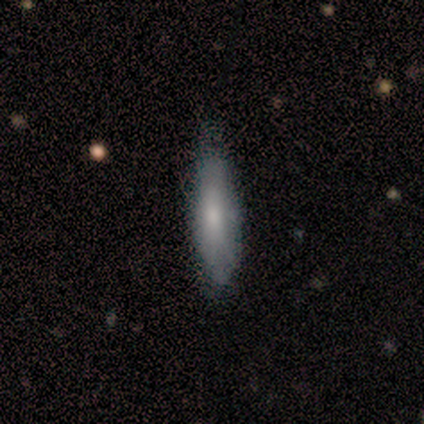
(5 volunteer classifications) smooth-or-featured: smooth: 100% | featured or disk: 0% | star or artifact: 0%
  how-rounded: in between: 60% | cigar-shaped: 40% | round: 0%
  merging: none: 80% | minor disturbance: 20% | major disturbance: 0% | merger: 0%